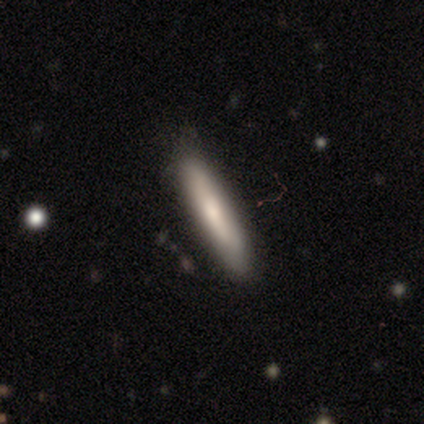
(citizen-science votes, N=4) Smooth or featured? smooth (100%)
How rounded? cigar-shaped (100%)
Merging? none (75%)